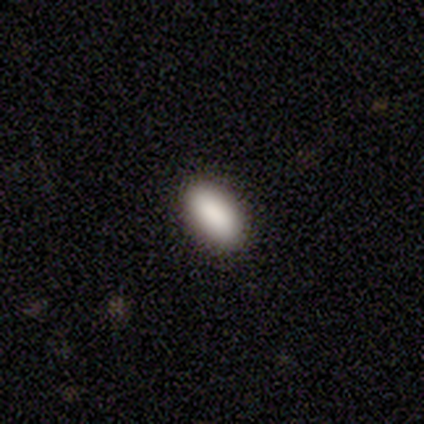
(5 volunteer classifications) Volunteers were most divided on "how rounded": in between: 80%, cigar-shaped: 20%, round: 0%. More confident: smooth or featured — smooth (100%); merging — none (100%).